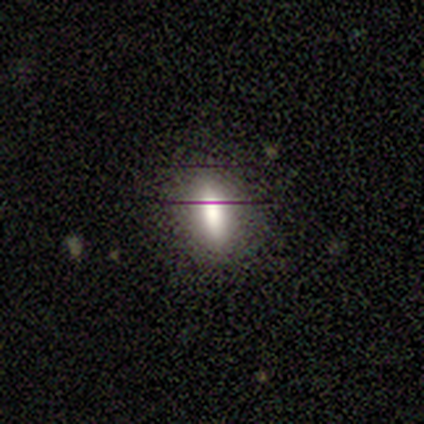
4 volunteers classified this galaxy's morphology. smooth-or-featured: smooth: 100% | featured or disk: 0% | star or artifact: 0%
  how-rounded: in between: 50% (tied) | cigar-shaped: 50% (tied) | round: 0%
  merging: none: 50% (tied) | minor disturbance: 50% (tied) | major disturbance: 0% | merger: 0%